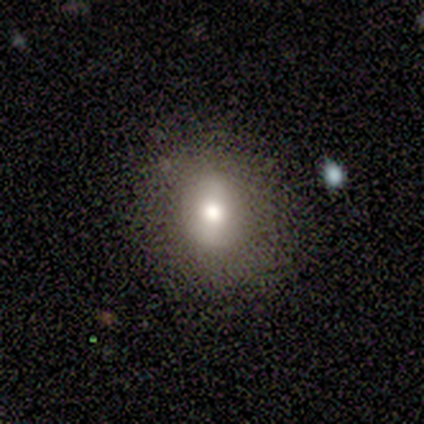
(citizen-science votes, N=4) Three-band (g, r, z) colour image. It shows a smooth galaxy with no disk features (50%) that is in between round and cigar-shaped (100%). Merging: none (100%).